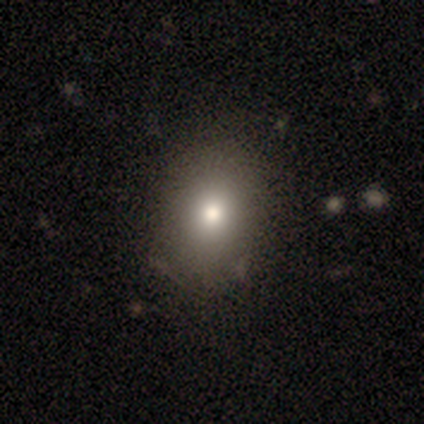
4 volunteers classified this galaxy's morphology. smooth-or-featured: smooth: 75% | star or artifact: 25% | featured or disk: 0%
  how-rounded: in between: 67% | round: 33% | cigar-shaped: 0%
  merging: none: 100% | minor disturbance: 0% | major disturbance: 0% | merger: 0%